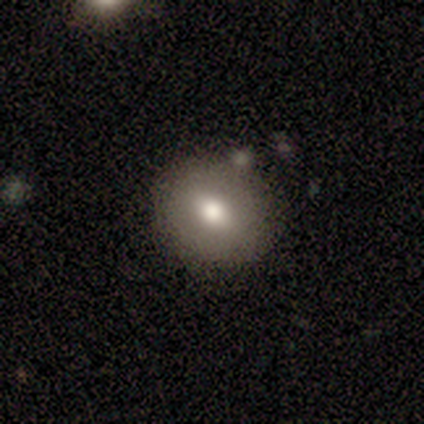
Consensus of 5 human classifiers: A smooth galaxy with no disk features (60%) that is round (100%). Merging: none (40%, tied with minor disturbance).